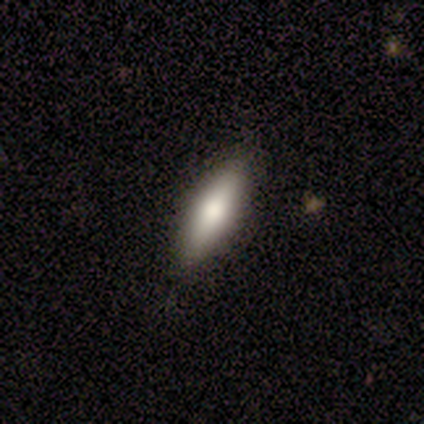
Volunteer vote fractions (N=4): star or artifact 50%, smooth 25%, featured or disk 25%.